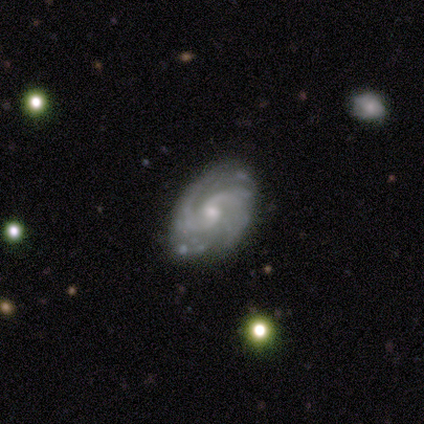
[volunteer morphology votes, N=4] Q: Smooth or featured?
A: featured or disk (100%)
Q: Edge-on disk?
A: no (75%); runner-up: yes (25%)
Q: Bar?
A: no (67%); runner-up: weak (33%)
Q: Spiral arms?
A: yes (100%)
Q: Spiral winding?
A: tight (67%); runner-up: medium (33%)
Q: Spiral arm count?
A: 2 (67%); runner-up: can't tell (33%)
Q: Bulge size?
A: moderate (67%); runner-up: small (33%)
Q: Merging?
A: none (100%)